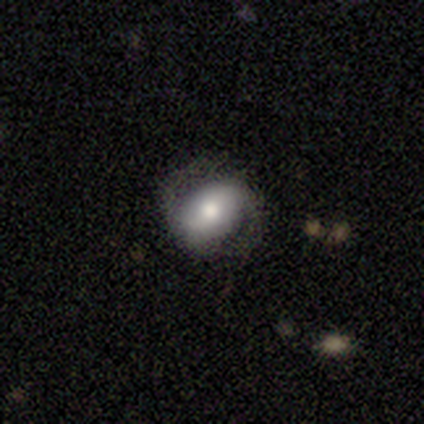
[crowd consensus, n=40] featured or disk 60%, smooth 32%, star or artifact 8%. Down the decision tree: edge-on disk — no (96%); bar — weak (48%); spiral arms — yes (87%); spiral arm count — 2 (100%); spiral winding — medium (45%); bulge size — moderate (57%); merging — none (73%).